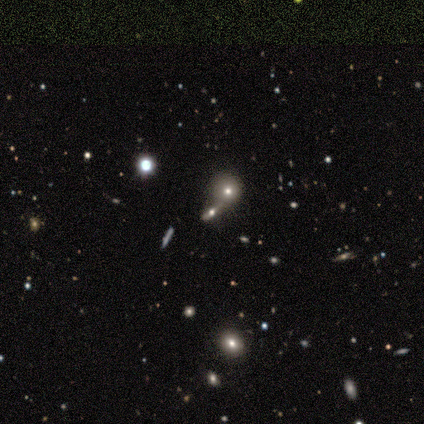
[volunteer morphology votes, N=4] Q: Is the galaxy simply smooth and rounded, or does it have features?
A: smooth — 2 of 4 (50%).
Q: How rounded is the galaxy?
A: cigar-shaped — 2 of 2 (100%).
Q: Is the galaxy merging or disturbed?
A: merger — 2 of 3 (67%).